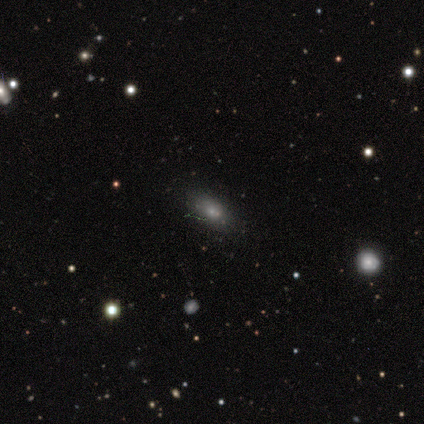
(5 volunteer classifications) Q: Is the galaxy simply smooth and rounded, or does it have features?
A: smooth — 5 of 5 (100%).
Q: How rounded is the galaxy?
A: in between — 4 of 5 (80%).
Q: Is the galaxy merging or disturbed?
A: none — 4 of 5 (80%).